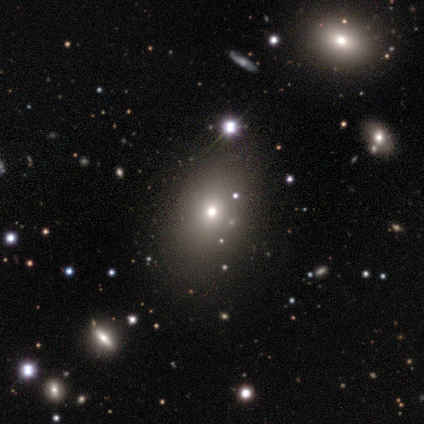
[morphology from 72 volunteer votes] Overall: smooth (65%). How rounded: in between (72%). Merging: none (65%).